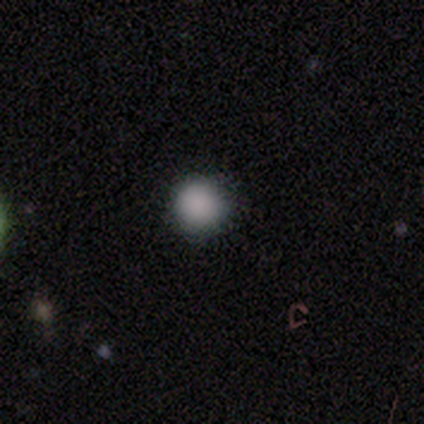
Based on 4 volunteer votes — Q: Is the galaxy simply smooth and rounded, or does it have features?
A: smooth — 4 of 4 (100%).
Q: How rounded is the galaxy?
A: round — 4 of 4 (100%).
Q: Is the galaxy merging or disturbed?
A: none — 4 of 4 (100%).